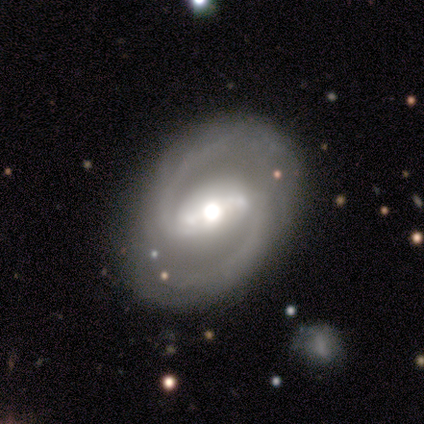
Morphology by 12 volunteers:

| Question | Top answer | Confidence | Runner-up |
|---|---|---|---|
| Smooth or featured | featured or disk | 92% | star or artifact (8%) |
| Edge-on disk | no | 100% | — |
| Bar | strong | 91% | weak (9%) |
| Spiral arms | yes | 100% | — |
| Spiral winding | medium | 82% | tight (9%) |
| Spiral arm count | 2 | 82% | 1 (9%) |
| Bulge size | moderate | 55% | large (45%) |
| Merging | none | 36% | minor disturbance (18%) |